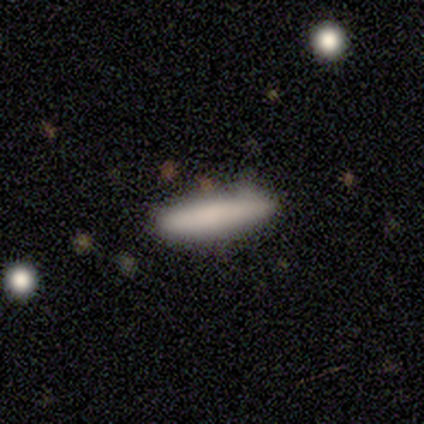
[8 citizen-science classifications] Q: Smooth or featured?
A: smooth (88%); runner-up: featured or disk (12%)
Q: How rounded?
A: cigar-shaped (86%); runner-up: in between (14%)
Q: Merging?
A: none (100%)